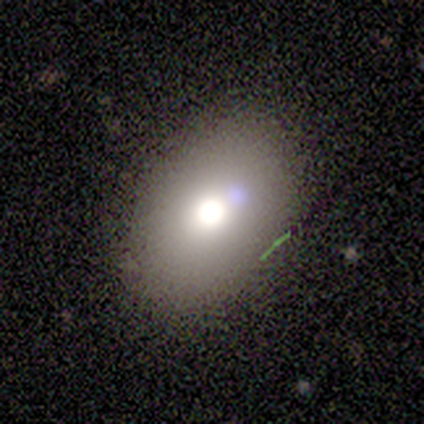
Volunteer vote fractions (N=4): Smooth or featured: smooth — 100%
How rounded: in between — 75% (round — 25%)
Merging: none — 75% (major disturbance — 25%)